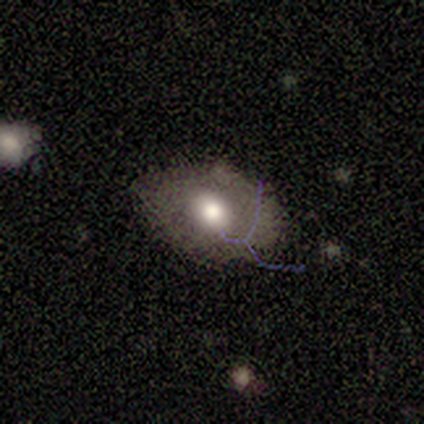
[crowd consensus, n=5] Smooth or featured? smooth (80%)
How rounded? in between (100%)
Merging? none (100%)